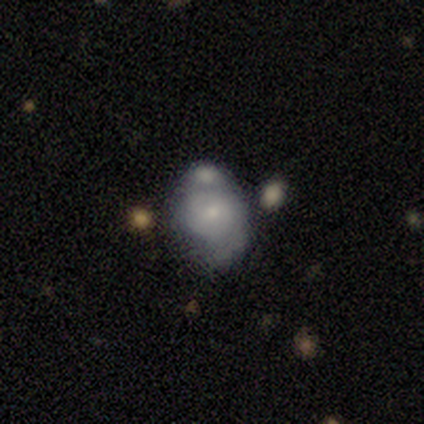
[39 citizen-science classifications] A featured or disk galaxy (54%) with no bar (67%), 1 (38%, tied with 2) medium (54%) spiral arms (62%) and a small central bulge (62%). Merging: merger (42%).